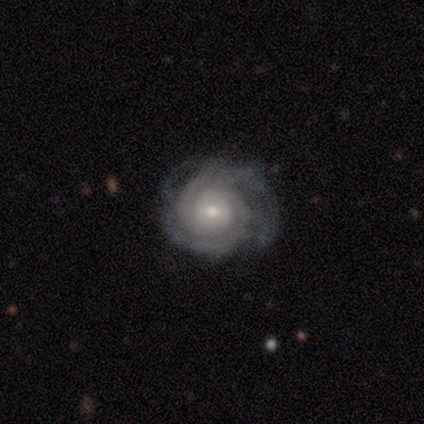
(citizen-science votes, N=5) Morphology: type=featured or disk (60%); edge-on=no (100%); bar=no (100%); spiral arms=yes (100%); winding=tight (67%); arm count=2 (67%); bulge=small (67%); merging=minor disturbance (60%).